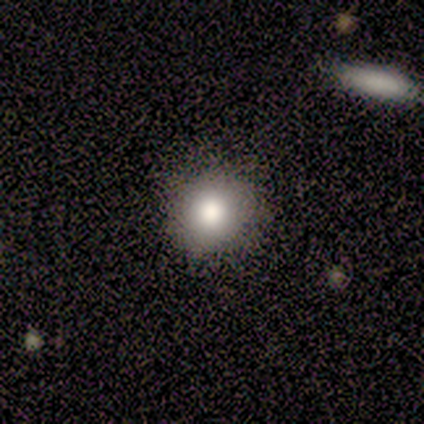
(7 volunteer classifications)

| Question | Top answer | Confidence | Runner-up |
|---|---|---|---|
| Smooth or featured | smooth | 100% | — |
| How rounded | round | 100% | — |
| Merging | none | 100% | — |